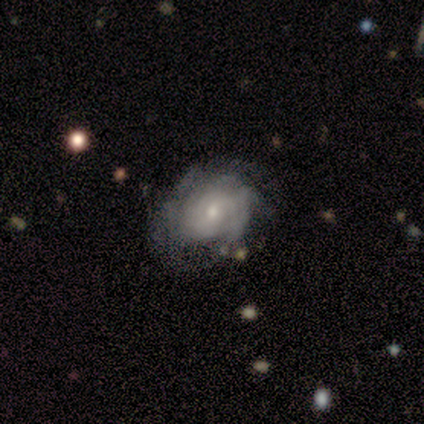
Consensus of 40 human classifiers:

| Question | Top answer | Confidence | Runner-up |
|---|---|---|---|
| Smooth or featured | featured or disk | 68% | smooth (28%) |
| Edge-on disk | no | 100% | — |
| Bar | no | 63% | weak (37%) |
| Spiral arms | yes | 85% | no (15%) |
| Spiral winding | tight | 61% | medium (30%) |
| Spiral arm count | can't tell | 74% | 3 (13%) |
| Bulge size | small | 56% | moderate (41%) |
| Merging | none | 50% | minor disturbance (26%) |